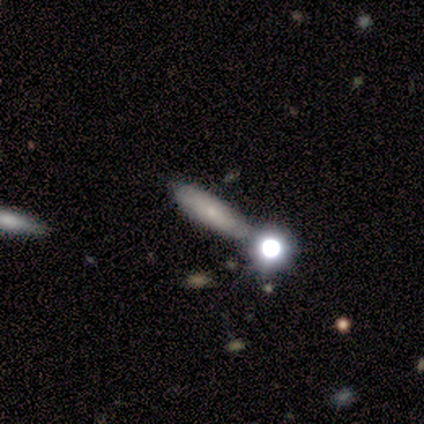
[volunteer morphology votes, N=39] Smooth or featured?
  - smooth: 62% *
  - featured or disk: 31%
  - star or artifact: 8%
How rounded?
  - cigar-shaped: 54% *
  - in between: 46%
  - round: 0%
Merging?
  - none: 50% *
  - minor disturbance: 25%
  - merger: 19%
  - major disturbance: 6%